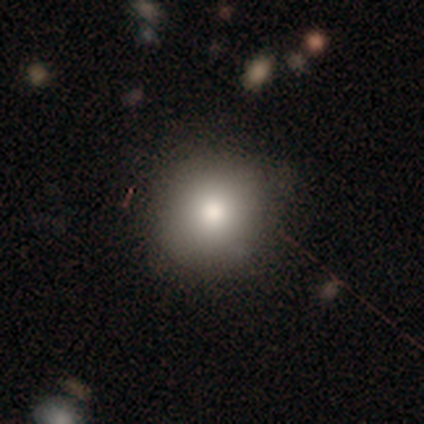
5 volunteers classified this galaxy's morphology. smooth 100%, featured or disk 0%, star or artifact 0%. Down the decision tree: how rounded — round (100%); merging — none (100%).